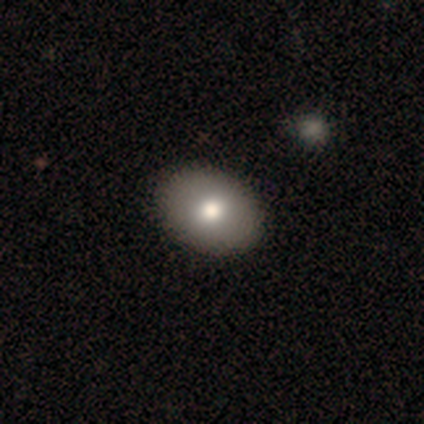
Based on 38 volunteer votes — A smooth galaxy with no disk features (82%) that is in between round and cigar-shaped (71%). Merging: none (51%).